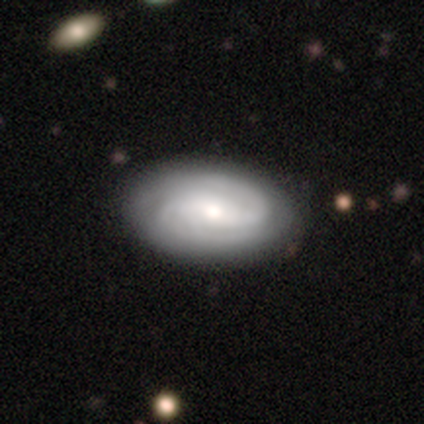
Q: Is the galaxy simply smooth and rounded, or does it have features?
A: featured or disk — 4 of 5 (80%).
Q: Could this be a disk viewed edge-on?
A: no — 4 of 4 (100%).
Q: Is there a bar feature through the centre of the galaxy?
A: weak — 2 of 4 (50%, tied with no).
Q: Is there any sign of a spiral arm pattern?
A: yes — 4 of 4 (100%).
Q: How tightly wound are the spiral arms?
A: tight — 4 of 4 (100%).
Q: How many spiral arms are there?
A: can't tell — 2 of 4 (50%).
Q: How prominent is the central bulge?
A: small — 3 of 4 (75%).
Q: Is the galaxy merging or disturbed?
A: none — 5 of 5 (100%).